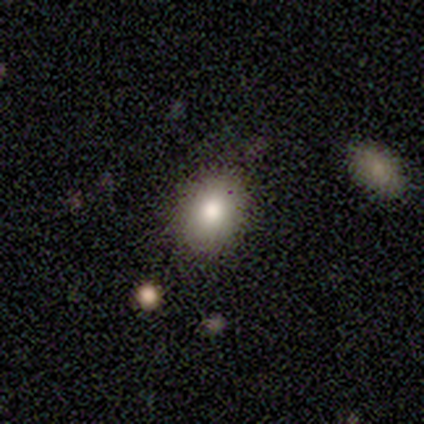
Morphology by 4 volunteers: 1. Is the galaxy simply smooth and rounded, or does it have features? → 75% smooth, 25% featured or disk, 0% star or artifact.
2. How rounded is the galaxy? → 67% round, 33% in between, 0% cigar-shaped.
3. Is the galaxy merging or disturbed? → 100% none, 0% minor disturbance, 0% major disturbance, 0% merger.